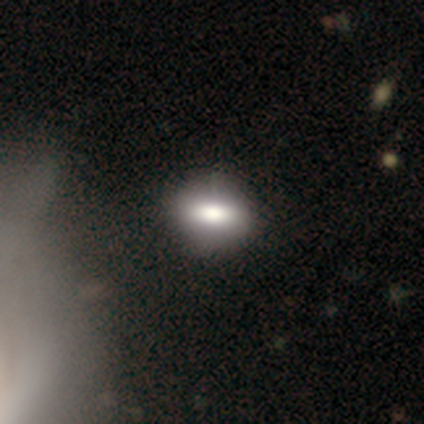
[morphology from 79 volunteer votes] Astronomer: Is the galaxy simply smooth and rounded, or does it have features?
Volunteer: smooth — 80%.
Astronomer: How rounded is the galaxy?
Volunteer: in between — 75%.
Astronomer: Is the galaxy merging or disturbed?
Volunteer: none — 41%.